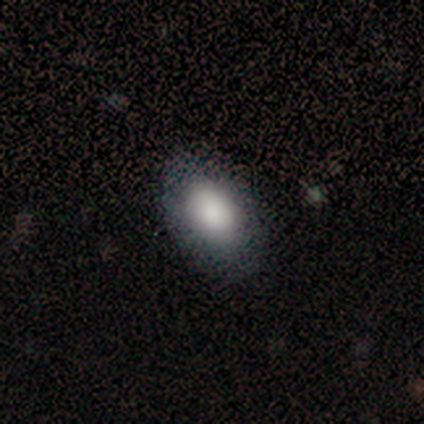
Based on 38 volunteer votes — This is likely a smooth galaxy (71%). How rounded: clearly in between (89%). Merging: clearly none (81%).